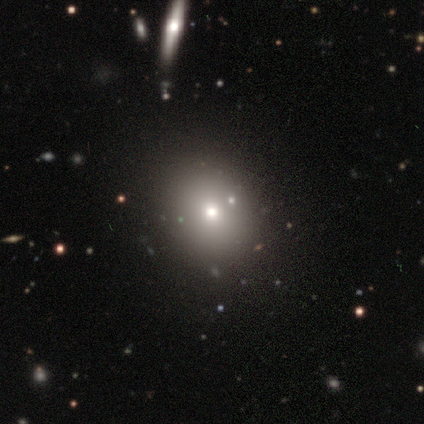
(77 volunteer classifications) This is likely a smooth galaxy (68%). How rounded: likely round (67%). Merging: marginally none (40%).